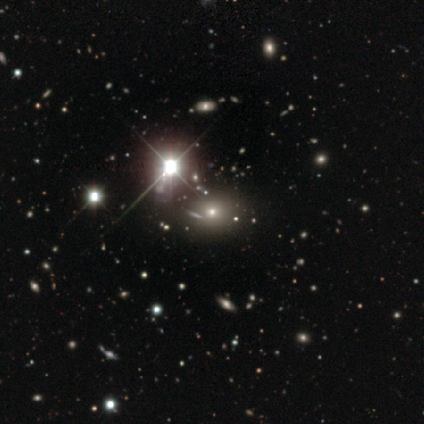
Morphology: type=star or artifact (51%).